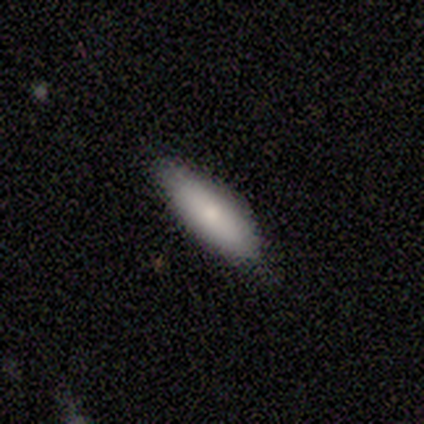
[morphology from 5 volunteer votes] A smooth galaxy with no disk features (80%) that is cigar-shaped (75%). Merging: none (80%).